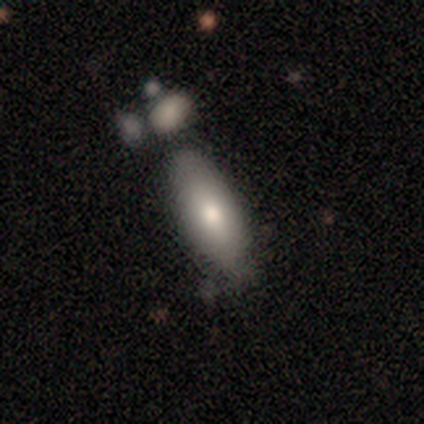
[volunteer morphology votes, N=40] smooth 75%, featured or disk 12%, star or artifact 12%. Down the decision tree: how rounded — in between (67%); merging — none (66%).